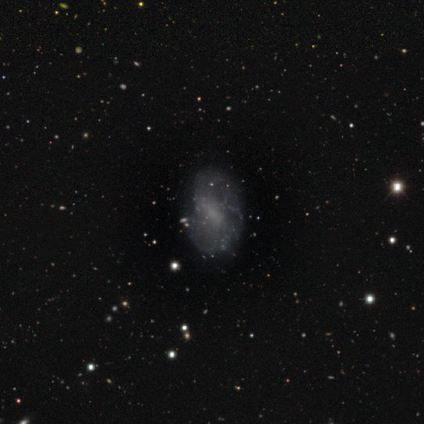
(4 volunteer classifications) smooth_or_featured: smooth (p=0.50) [alt: featured or disk p=0.25]
how_rounded: in between (p=1.00)
merging: none (p=0.67) [alt: major disturbance p=0.33]